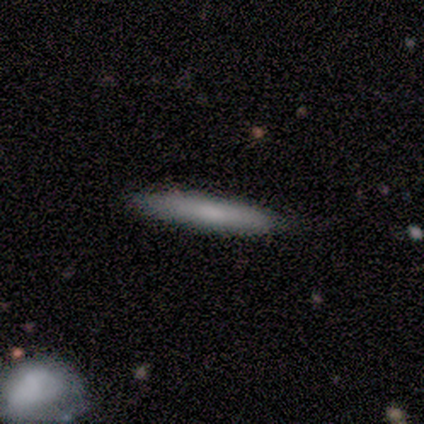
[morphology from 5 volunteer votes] This is clearly a smooth galaxy (100%). How rounded: clearly cigar-shaped (100%). Merging: clearly none (100%).